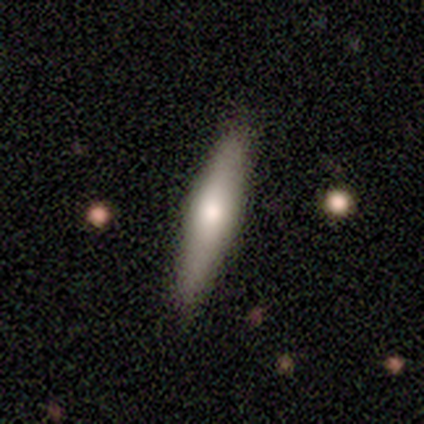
Overall: smooth (62%; featured or disk 35%). How rounded: cigar-shaped (96%). Merging: none (94%).